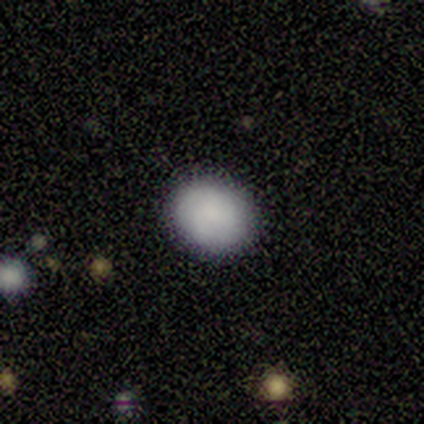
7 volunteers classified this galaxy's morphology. Q: Smooth or featured?
A: smooth (100%)
Q: How rounded?
A: in between (57%); runner-up: round (43%)
Q: Merging?
A: none (100%)